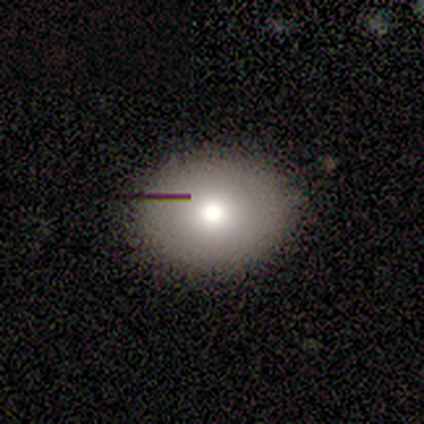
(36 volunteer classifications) smooth-or-featured: smooth: 86% | featured or disk: 11% | star or artifact: 3%
  how-rounded: round: 55% | in between: 45% | cigar-shaped: 0%
  merging: none: 94% | minor disturbance: 6% | major disturbance: 0% | merger: 0%